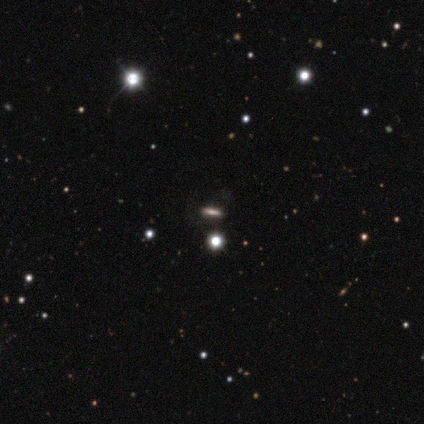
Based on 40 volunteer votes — smooth-or-featured: star or artifact: 45% | smooth: 42% | featured or disk: 12%